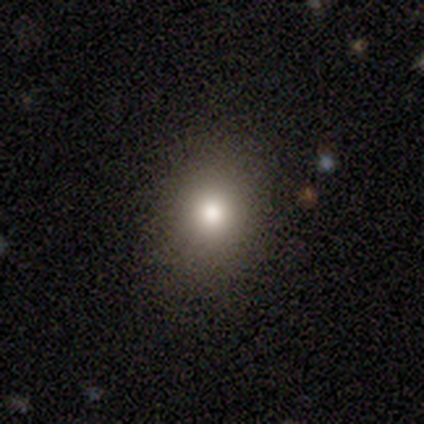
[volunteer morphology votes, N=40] Q: Smooth or featured?
A: smooth (78%); runner-up: star or artifact (12%)
Q: How rounded?
A: in between (58%); runner-up: round (42%)
Q: Merging?
A: none (86%); runner-up: minor disturbance (14%)